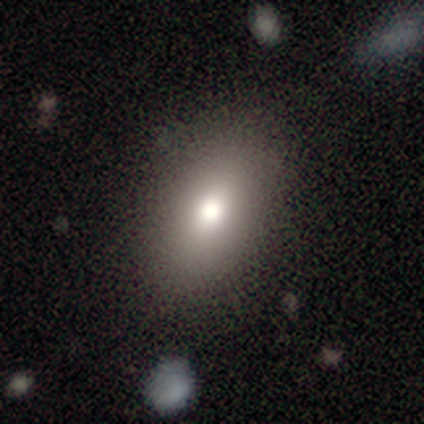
smooth-or-featured: smooth: 60% | featured or disk: 20% | star or artifact: 20%
  how-rounded: in between: 67% | cigar-shaped: 33% | round: 0%
  merging: none: 100% | minor disturbance: 0% | major disturbance: 0% | merger: 0%